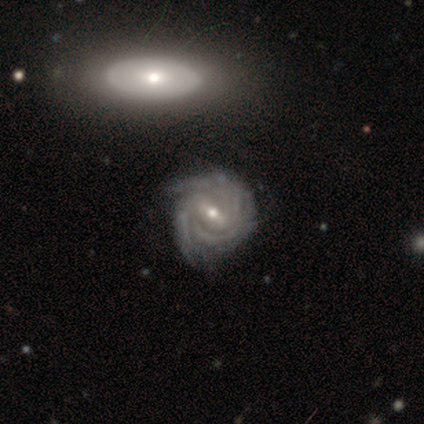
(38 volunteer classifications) A featured or disk galaxy (97%) with a strong bar (54%), tight (76%) spiral arms (94%) and a moderate central bulge (54%). Merging: none (74%).